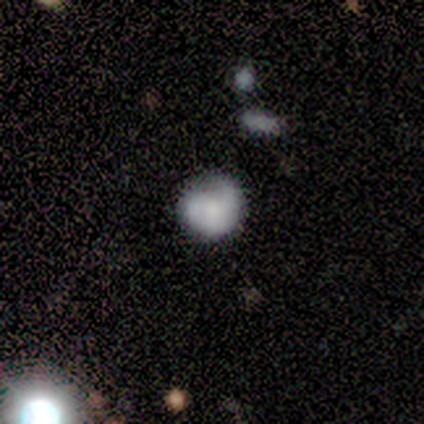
A smooth galaxy with no disk features (80%) that is round (75%). Merging: minor disturbance (60%).